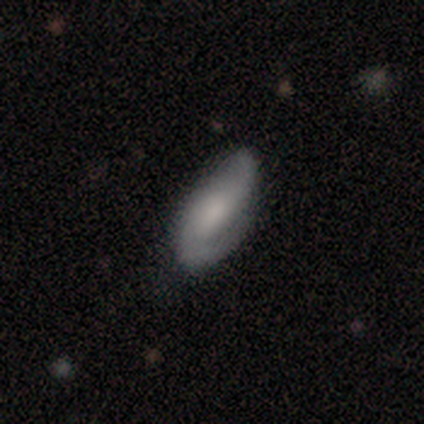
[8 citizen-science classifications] featured or disk 62%, smooth 25%, star or artifact 12%. Down the decision tree: edge-on disk — no (80%); bar — no (75%); spiral arms — yes (100%); spiral arm count — 2 (100%); spiral winding — medium (75%); bulge size — small (75%); merging — none (43%, tied with minor disturbance).